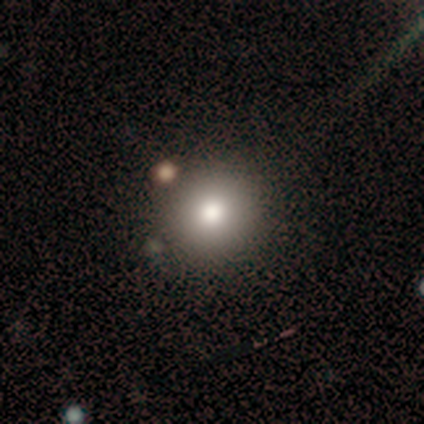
Smooth or featured? smooth (78%)
How rounded? round (90%)
Merging? none (72%)